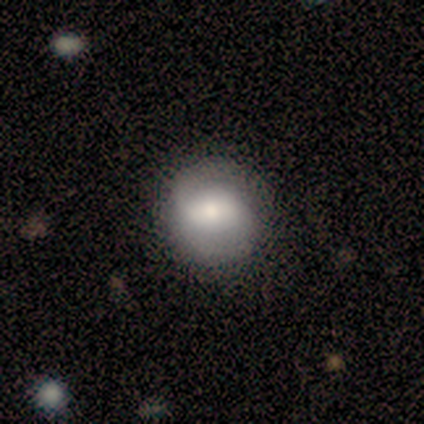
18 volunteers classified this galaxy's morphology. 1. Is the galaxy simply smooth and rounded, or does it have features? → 61% smooth, 39% featured or disk, 0% star or artifact.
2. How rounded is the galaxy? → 91% round, 9% in between, 0% cigar-shaped.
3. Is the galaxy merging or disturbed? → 78% none, 17% minor disturbance, 6% major disturbance, 0% merger.